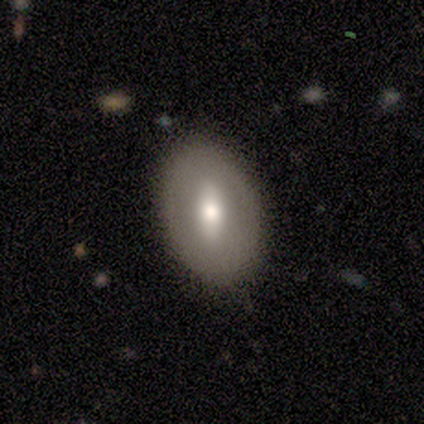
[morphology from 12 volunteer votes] This appears to be a smooth galaxy with no disk features (42%, tied with featured or disk) that is in between round and cigar-shaped (100%). Merging: none (50%).